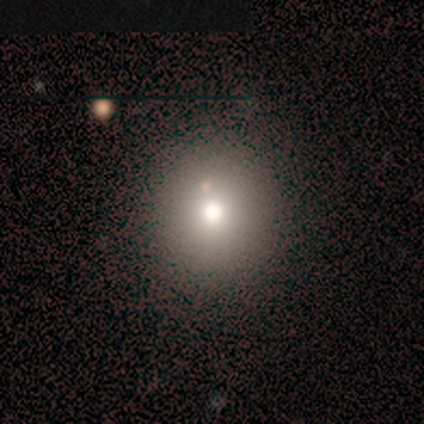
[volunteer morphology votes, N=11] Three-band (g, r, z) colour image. It shows a smooth galaxy with no disk features (82%) that is round (89%). Merging: none (100%).